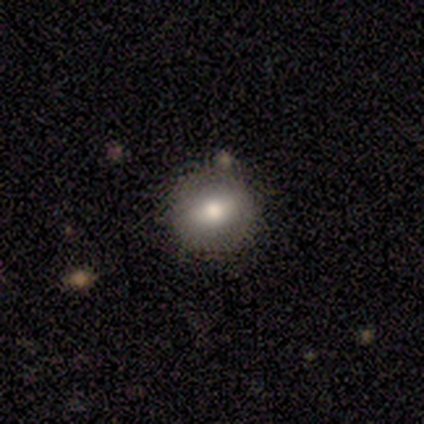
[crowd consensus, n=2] Consensus on every question: smooth or featured — smooth (100%); how rounded — round (100%); merging — none (100%).